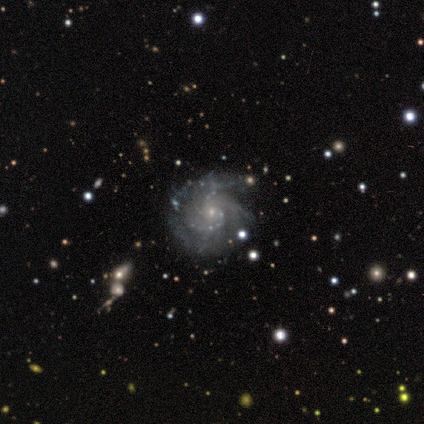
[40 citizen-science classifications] Volunteers were most divided on "spiral winding": medium: 49%, tight: 41%, loose: 11%. Remaining: edge-on disk — no (100%); spiral arms — yes (100%); smooth or featured — featured or disk (92%); bulge size — small (84%); bar — no (62%); merging — none (51%); spiral arm count — 2 (35%).